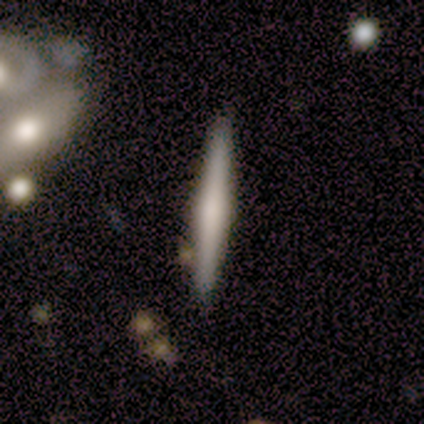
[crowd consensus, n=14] Smooth or featured?
  - smooth: 50% *
  - featured or disk: 43%
  - star or artifact: 7%
How rounded?
  - cigar-shaped: 100% *
  - round: 0%
  - in between: 0%
Merging?
  - none: 77% *
  - minor disturbance: 15%
  - major disturbance: 8%
  - merger: 0%